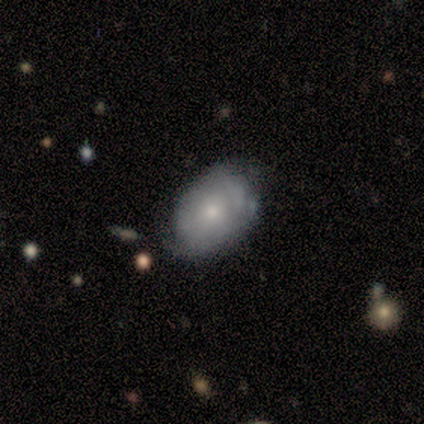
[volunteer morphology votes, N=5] Overall: smooth (80%). How rounded: in between (100%). Merging: minor disturbance (100%).